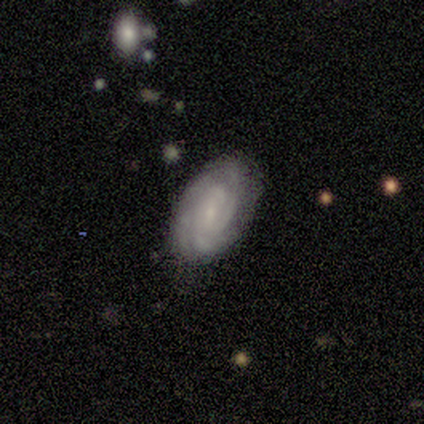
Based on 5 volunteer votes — Smooth or featured: featured or disk — 100%
Edge-on disk: no — 100%
Bar: no — 60% (weak — 40%)
Spiral arms: yes — 100%
Spiral winding: tight — 60% (medium — 20%)
Spiral arm count: 2 — 40% (tied with can't tell — 40%)
Bulge size: small — 100%
Merging: none — 80% (minor disturbance — 20%)